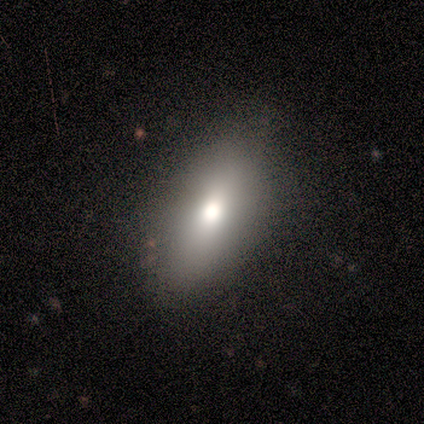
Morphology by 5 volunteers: A smooth galaxy with no disk features (100%) that is in between round and cigar-shaped (100%).

Vote fractions:
- Smooth or featured? smooth: 100% / featured or disk: 0% / star or artifact: 0%
- How rounded? in between: 100% / round: 0% / cigar-shaped: 0%
- Merging? none: 100% / minor disturbance: 0% / major disturbance: 0% / merger: 0%